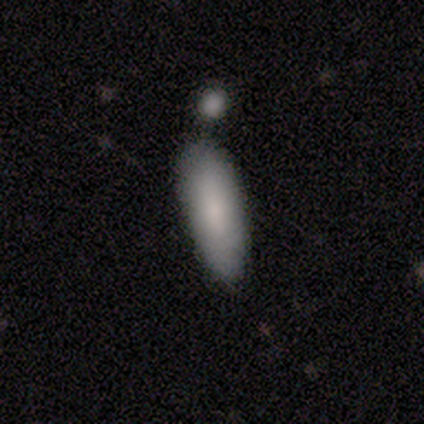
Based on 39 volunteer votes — Smooth or featured? smooth (95%)
How rounded? in between (65%)
Merging? merger (38%)